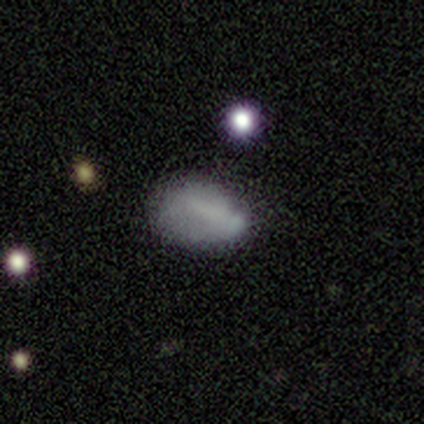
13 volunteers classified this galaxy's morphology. Smooth or featured: smooth — 77% (featured or disk — 15%)
How rounded: in between — 90% (round — 10%)
Merging: none — 75% (minor disturbance — 17%)